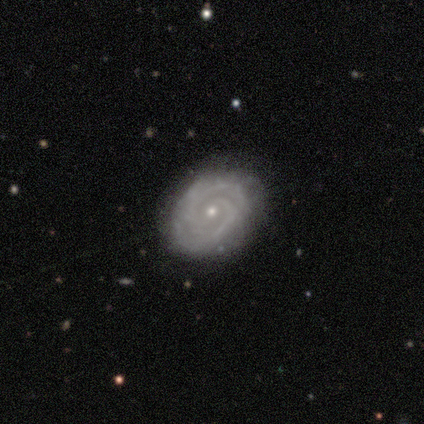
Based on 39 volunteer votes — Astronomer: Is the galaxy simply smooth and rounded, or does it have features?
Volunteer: featured or disk — 79%.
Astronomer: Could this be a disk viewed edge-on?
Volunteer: no — 100%.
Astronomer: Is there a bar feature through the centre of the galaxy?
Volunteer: no — 65%.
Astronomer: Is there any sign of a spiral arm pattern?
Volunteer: yes — 90%.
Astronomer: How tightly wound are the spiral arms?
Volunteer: tight — 64%.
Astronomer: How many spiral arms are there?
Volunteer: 2 — 82%.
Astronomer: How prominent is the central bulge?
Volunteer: small — 77%.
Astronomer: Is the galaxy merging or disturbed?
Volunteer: none — 77%.